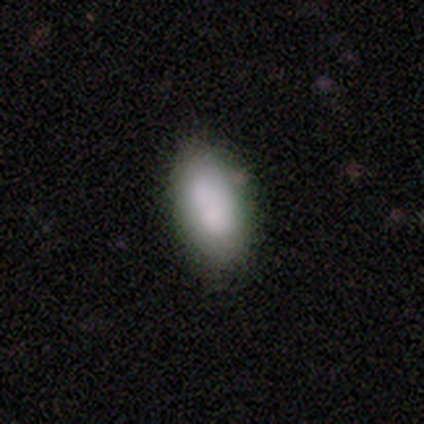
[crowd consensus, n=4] Morphology: type=smooth (100%); roundness=in between (100%); merging=none (50%, tied with merger).